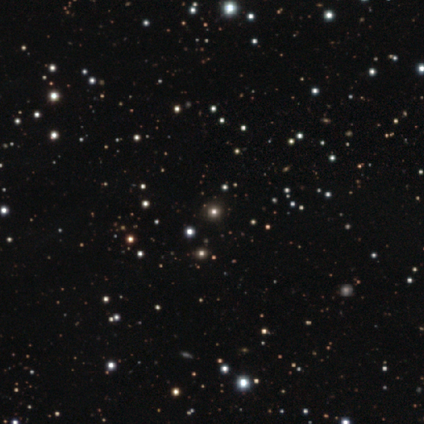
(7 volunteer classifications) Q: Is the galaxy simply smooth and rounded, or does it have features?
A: star or artifact — 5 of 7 (71%).